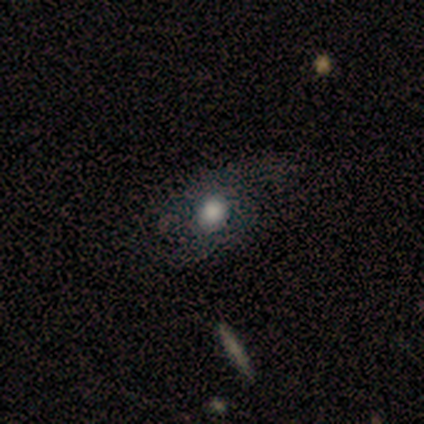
smooth_or_featured: smooth (p=0.60) [alt: star or artifact p=0.40]
how_rounded: round (p=0.67) [alt: in between p=0.33]
merging: none (p=1.00)